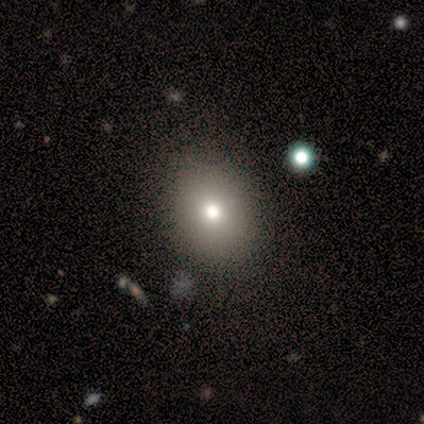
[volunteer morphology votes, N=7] Smooth or featured: smooth — 57% (featured or disk — 43%)
How rounded: in between — 75% (round — 25%)
Merging: none — 86% (minor disturbance — 14%)